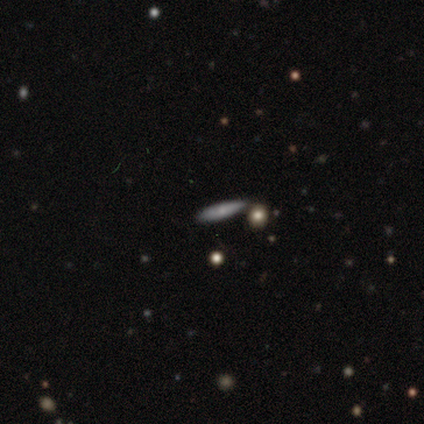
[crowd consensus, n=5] This appears to be a smooth galaxy with no disk features (40%, tied with star or artifact) that is cigar-shaped (100%). Merging: none (67%).